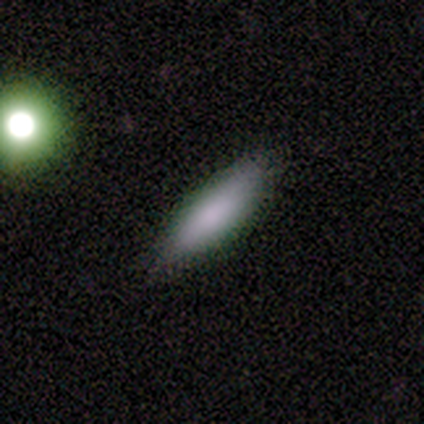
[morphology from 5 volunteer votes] A smooth galaxy with no disk features (100%) that is in between round and cigar-shaped (60%).

Vote fractions:
- Smooth or featured? smooth: 100% / featured or disk: 0% / star or artifact: 0%
- How rounded? in between: 60% / cigar-shaped: 40% / round: 0%
- Merging? none: 100% / minor disturbance: 0% / major disturbance: 0% / merger: 0%